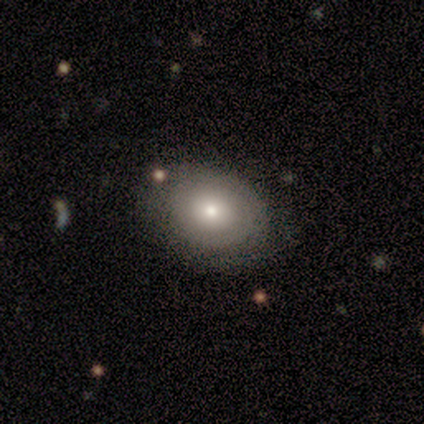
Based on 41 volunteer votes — Overall: smooth (51%; featured or disk 46%). How rounded: in between (62%; round 38%). Merging: none (88%).